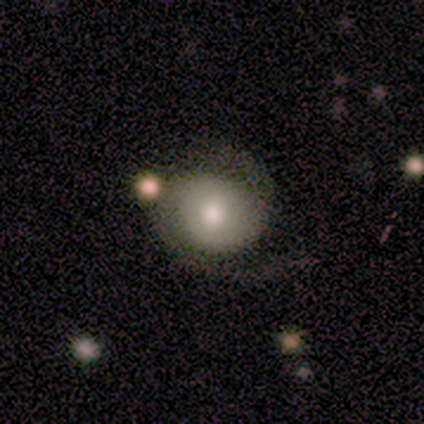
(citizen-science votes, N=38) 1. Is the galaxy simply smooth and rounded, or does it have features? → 66% featured or disk, 24% smooth, 11% star or artifact.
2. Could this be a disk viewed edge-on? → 100% no, 0% yes.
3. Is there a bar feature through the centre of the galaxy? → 52% weak, 40% no, 8% strong.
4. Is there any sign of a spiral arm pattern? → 92% yes, 8% no.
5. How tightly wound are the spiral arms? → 48% tight, 26% medium, 26% loose.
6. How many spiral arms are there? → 91% 2, 9% 1, 0% 3, 0% 4, 0% more than 4, 0% can't tell.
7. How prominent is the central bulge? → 80% moderate, 8% large, 8% small, 4% dominant, 0% none.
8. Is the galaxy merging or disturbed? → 53% none, 32% minor disturbance, 9% merger, 6% major disturbance.